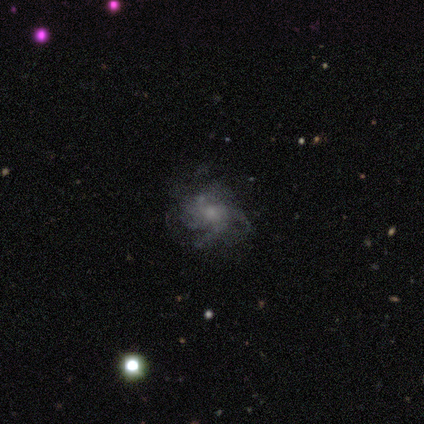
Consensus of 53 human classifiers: This appears to be a featured or disk galaxy (81%) with no bar (83%), 4 (34%) medium (40%, tied with loose) spiral arms (83%) and a small central bulge (43%). Merging: none (46%).